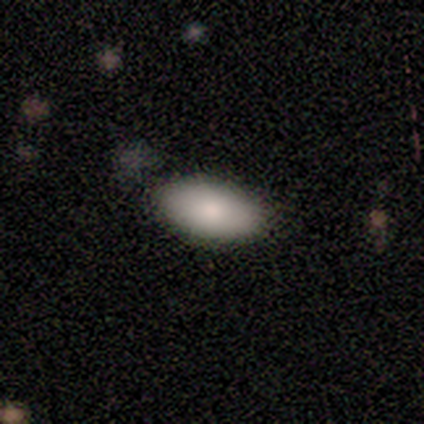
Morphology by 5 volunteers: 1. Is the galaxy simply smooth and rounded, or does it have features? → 80% smooth, 20% featured or disk, 0% star or artifact.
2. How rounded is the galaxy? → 75% in between, 25% round, 0% cigar-shaped.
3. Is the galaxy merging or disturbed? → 80% none, 20% merger, 0% minor disturbance, 0% major disturbance.